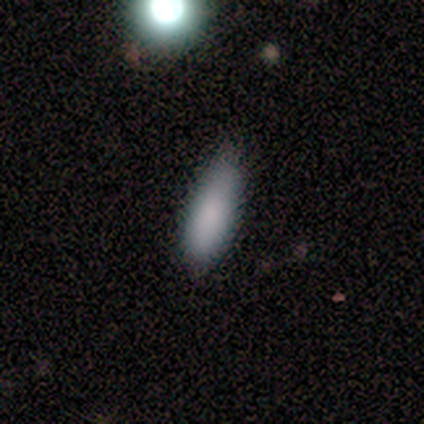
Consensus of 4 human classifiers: This is clearly a smooth galaxy (100%). How rounded: likely in between (75%). Merging: clearly minor disturbance (100%).